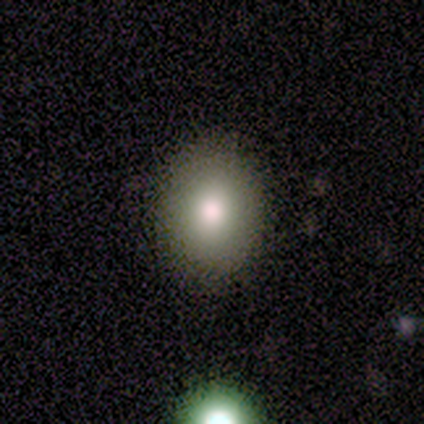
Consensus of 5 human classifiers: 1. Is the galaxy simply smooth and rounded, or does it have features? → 100% smooth, 0% featured or disk, 0% star or artifact.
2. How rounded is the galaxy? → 60% in between, 40% round, 0% cigar-shaped.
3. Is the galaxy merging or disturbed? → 100% none, 0% minor disturbance, 0% major disturbance, 0% merger.